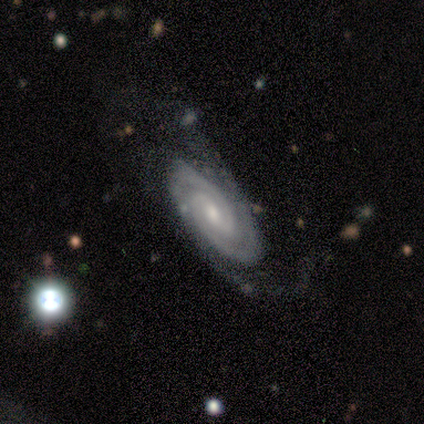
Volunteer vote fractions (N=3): Overall: featured or disk (100%). Edge-on disk: no (100%). Bar: no (67%; weak 33%). Spiral arms: yes (100%). Spiral arm count: 2 (100%). Spiral winding: tight (67%; medium 33%). Bulge size: small (67%; moderate 33%). Merging: none (67%; minor disturbance 33%).